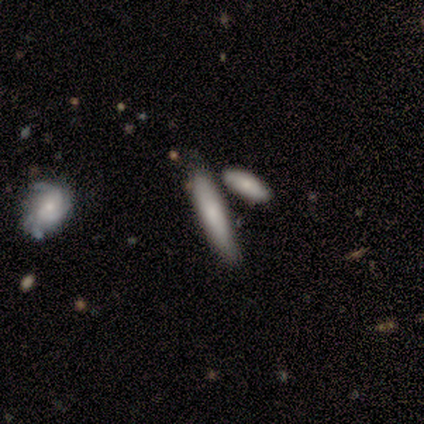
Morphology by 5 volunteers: Smooth or featured: smooth — 80% (featured or disk — 20%)
How rounded: cigar-shaped — 75% (in between — 25%)
Merging: merger — 60% (none — 40%)